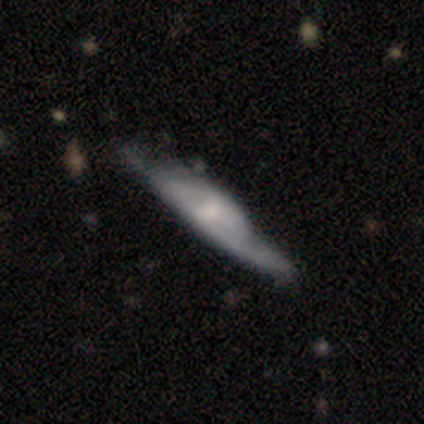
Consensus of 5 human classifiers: This appears to be a featured or disk galaxy (60%) viewed edge-on (67%) with a rounded central bulge (100%). Merging: major disturbance (50%).